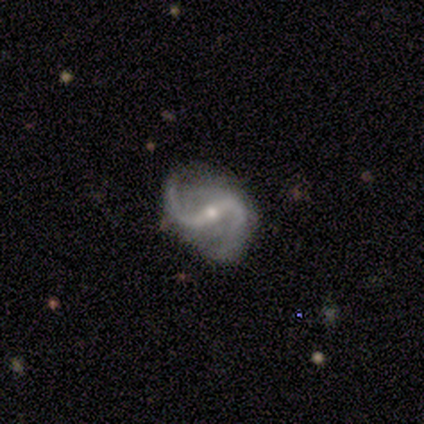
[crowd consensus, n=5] Overall: featured or disk (100%). Edge-on disk: no (100%). Bar: strong (40%, tied with weak). Spiral arms: yes (100%). Spiral arm count: 2 (100%). Spiral winding: loose (80%). Bulge size: small (80%). Merging: none (100%).